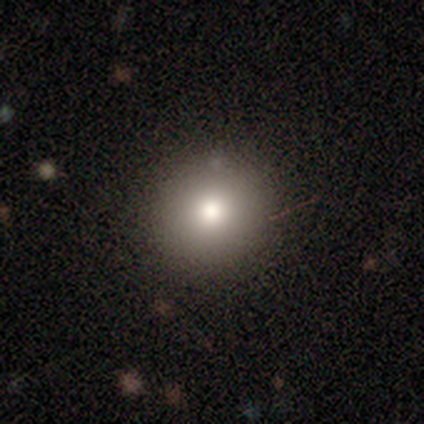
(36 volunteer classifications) Smooth or featured?
  - smooth: 86% *
  - featured or disk: 14%
  - star or artifact: 0%
How rounded?
  - round: 94% *
  - in between: 3%
  - cigar-shaped: 3%
Merging?
  - none: 89% *
  - minor disturbance: 8%
  - major disturbance: 3%
  - merger: 0%